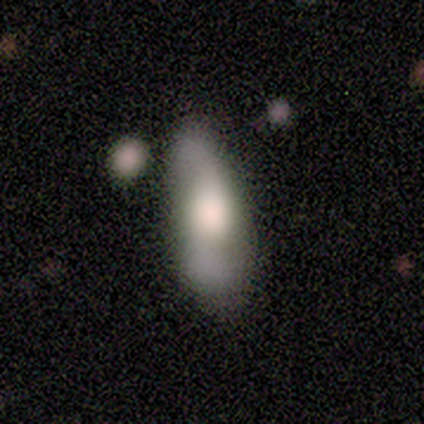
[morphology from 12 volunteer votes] type=smooth (50%, tied with featured or disk); roundness=in between (100%); merging=minor disturbance (50%).